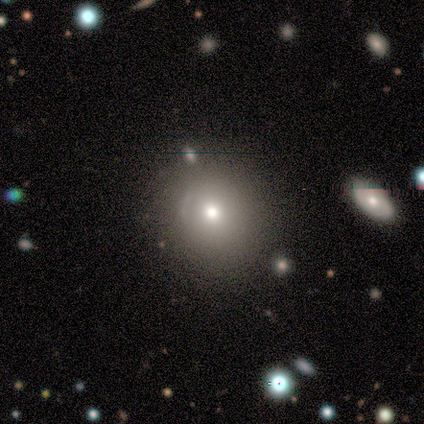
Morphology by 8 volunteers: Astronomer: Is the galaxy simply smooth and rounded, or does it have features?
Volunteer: star or artifact — 50% (runner-up: smooth, 38%).